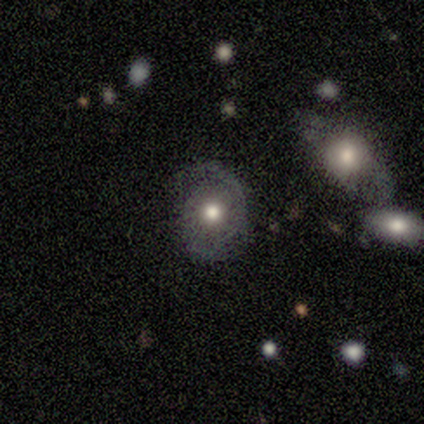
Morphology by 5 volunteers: Smooth or featured: featured or disk — 60% (smooth — 20%)
Edge-on disk: no — 100%
Bar: no — 100%
Spiral arms: yes — 67% (no — 33%)
Spiral winding: medium — 100%
Spiral arm count: 1 — 50% (tied with 2 — 50%)
Bulge size: moderate — 100%
Merging: none — 75% (major disturbance — 25%)